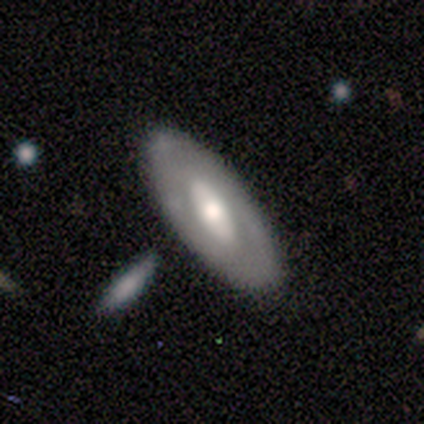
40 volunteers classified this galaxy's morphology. Smooth or featured?
  - featured or disk: 55% *
  - smooth: 38%
  - star or artifact: 8%
Edge-on disk?
  - no: 91% *
  - yes: 9%
Bar?
  - no: 50% *
  - weak: 35%
  - strong: 15%
Spiral arms?
  - no: 80% *
  - yes: 20%
Bulge size?
  - moderate: 70% *
  - large: 25%
  - small: 5%
  - dominant: 0%
  - none: 0%
Merging?
  - none: 81% *
  - minor disturbance: 11%
  - merger: 5%
  - major disturbance: 3%